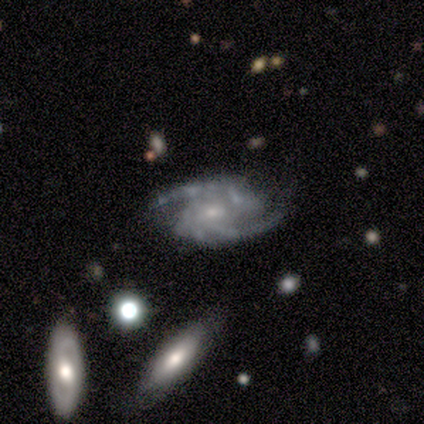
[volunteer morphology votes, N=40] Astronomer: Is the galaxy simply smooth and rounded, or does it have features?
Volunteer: featured or disk — 90%.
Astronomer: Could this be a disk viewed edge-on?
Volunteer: no — 92%.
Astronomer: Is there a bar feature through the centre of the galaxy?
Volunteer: no — 55% (runner-up: weak, 42%).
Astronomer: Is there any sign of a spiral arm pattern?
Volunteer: yes — 100%.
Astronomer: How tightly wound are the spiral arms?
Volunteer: medium — 64%.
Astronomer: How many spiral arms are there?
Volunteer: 2 — 88%.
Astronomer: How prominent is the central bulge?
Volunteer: small — 67%.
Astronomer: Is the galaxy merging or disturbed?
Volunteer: none — 68%.